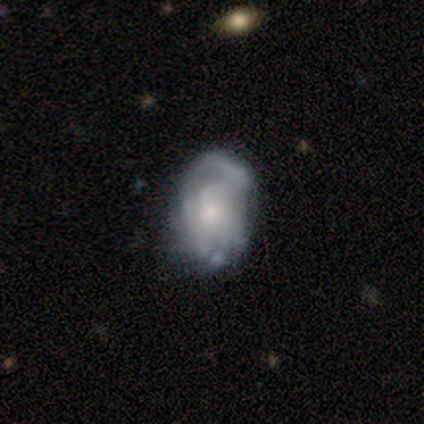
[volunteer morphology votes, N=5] Volunteers were most divided on "bar" (2-way tie): weak: 50%, no: 50%, strong: 0%; "spiral arm count" (3-way tie): 2: 33%, 4: 33%, can't tell: 33%, 1: 0%, 3: 0%, more than 4: 0%; "bulge size" (2-way tie): moderate: 50%, small: 50%, dominant: 0%, large: 0%, none: 0%; "merging" (2-way tie): minor disturbance: 40%, major disturbance: 40%, none: 20%, merger: 0%. More confident: edge-on disk — no (100%); smooth or featured — featured or disk (80%); spiral arms — yes (75%); spiral winding — medium (67%).